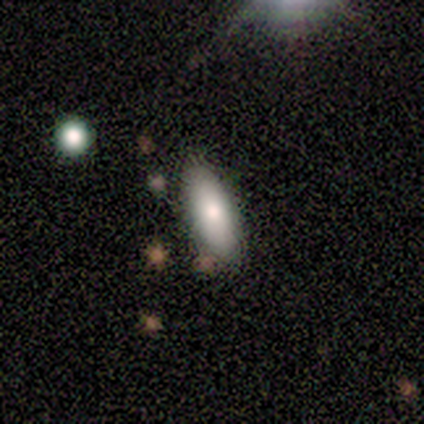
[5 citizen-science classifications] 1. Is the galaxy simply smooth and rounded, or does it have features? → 100% smooth, 0% featured or disk, 0% star or artifact.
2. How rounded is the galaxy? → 100% in between, 0% round, 0% cigar-shaped.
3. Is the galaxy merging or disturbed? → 100% none, 0% minor disturbance, 0% major disturbance, 0% merger.